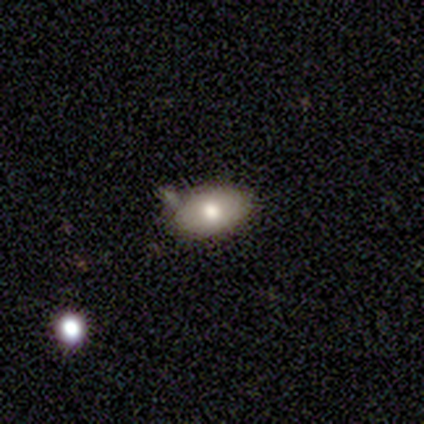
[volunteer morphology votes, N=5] smooth-or-featured: smooth: 80% | featured or disk: 20% | star or artifact: 0%
  how-rounded: in between: 100% | round: 0% | cigar-shaped: 0%
  merging: minor disturbance: 60% | none: 40% | major disturbance: 0% | merger: 0%